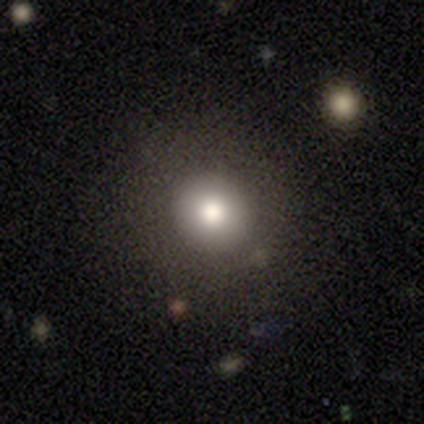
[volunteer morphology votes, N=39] This is likely a smooth galaxy (72%). How rounded: clearly round (93%). Merging: possibly none (49%).